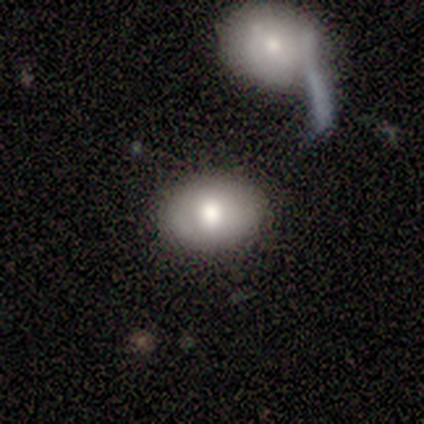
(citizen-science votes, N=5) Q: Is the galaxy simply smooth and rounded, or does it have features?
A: smooth — 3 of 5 (60%).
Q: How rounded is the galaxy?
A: in between — 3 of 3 (100%).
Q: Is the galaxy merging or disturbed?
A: none — 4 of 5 (80%).